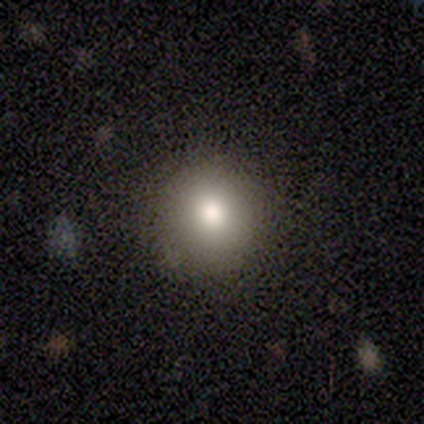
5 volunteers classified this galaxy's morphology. Overall: smooth (60%; featured or disk 20%). How rounded: round (100%). Merging: none (75%).